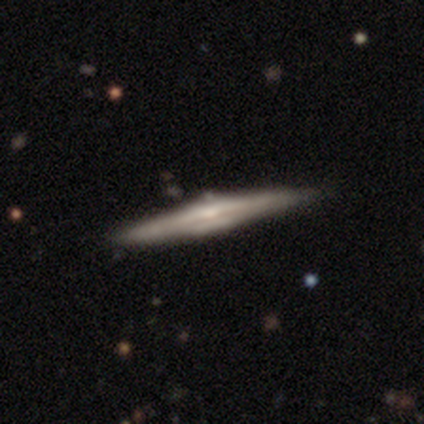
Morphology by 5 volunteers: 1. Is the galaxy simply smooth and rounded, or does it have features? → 80% featured or disk, 20% star or artifact, 0% smooth.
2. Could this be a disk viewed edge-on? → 100% yes, 0% no.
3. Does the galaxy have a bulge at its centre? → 50% none (tied), 50% rounded (tied), 0% boxy.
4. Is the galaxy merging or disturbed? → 75% none, 25% minor disturbance, 0% major disturbance, 0% merger.